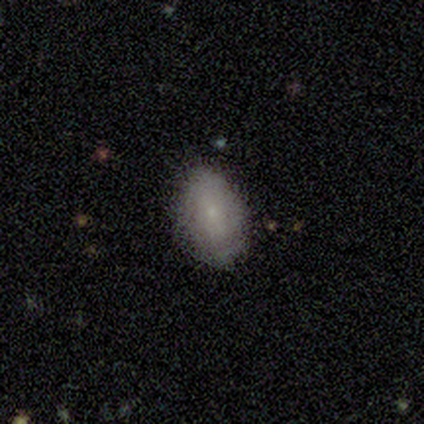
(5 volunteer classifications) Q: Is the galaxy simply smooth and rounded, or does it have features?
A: smooth — 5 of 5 (100%).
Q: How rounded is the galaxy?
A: in between — 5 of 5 (100%).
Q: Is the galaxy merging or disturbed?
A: none — 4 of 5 (80%).